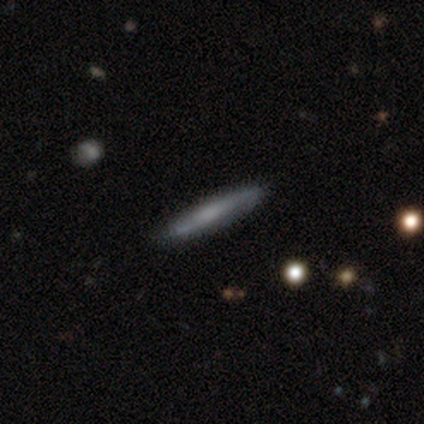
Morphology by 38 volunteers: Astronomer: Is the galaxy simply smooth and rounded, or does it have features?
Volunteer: smooth — 47%, tied with featured or disk at 47%.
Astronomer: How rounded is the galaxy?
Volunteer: cigar-shaped — 94%.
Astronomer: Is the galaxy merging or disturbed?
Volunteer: none — 89%.